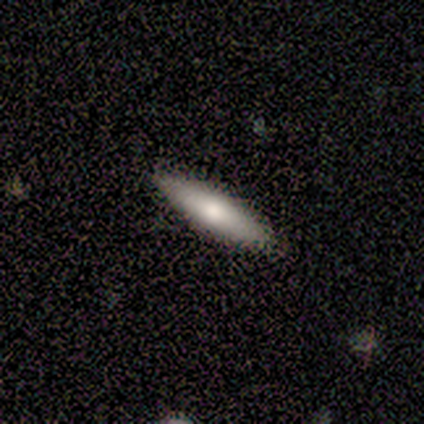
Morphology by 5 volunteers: type=smooth (80%); roundness=in between (75%); merging=none (100%).